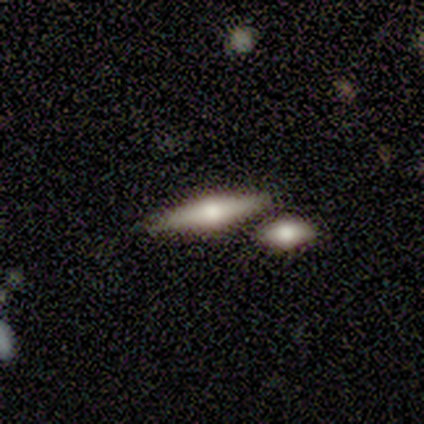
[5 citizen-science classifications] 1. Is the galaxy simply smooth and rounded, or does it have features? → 40% smooth (tied), 40% featured or disk (tied), 20% star or artifact.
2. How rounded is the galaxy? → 100% cigar-shaped, 0% round, 0% in between.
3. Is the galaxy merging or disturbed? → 50% none (tied), 50% merger (tied), 0% minor disturbance, 0% major disturbance.